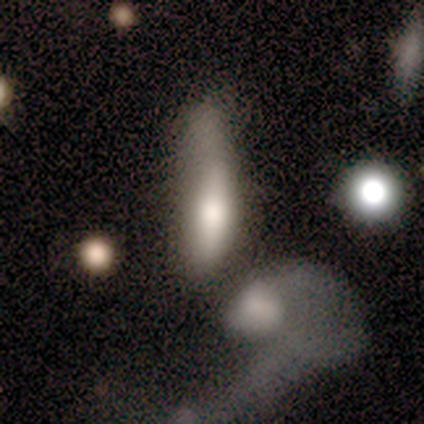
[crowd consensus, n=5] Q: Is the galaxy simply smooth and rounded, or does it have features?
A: smooth — 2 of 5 (40%, tied with star or artifact).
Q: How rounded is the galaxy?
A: in between — 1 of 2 (50%, tied with cigar-shaped).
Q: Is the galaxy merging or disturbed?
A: merger — 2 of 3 (67%).